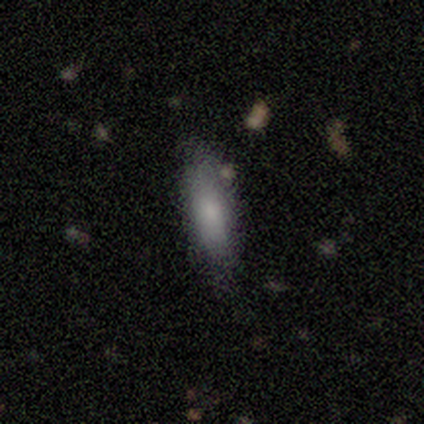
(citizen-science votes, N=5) Smooth or featured?
  - smooth: 60% *
  - featured or disk: 40%
  - star or artifact: 0%
How rounded?
  - in between: 67% *
  - cigar-shaped: 33%
  - round: 0%
Merging?
  - none: 80% *
  - minor disturbance: 20%
  - major disturbance: 0%
  - merger: 0%